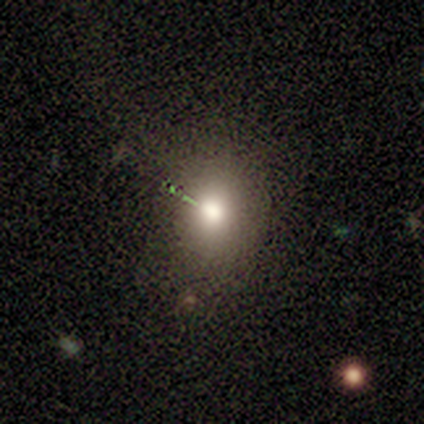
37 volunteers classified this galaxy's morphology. smooth-or-featured: smooth: 78% | star or artifact: 14% | featured or disk: 8%
  how-rounded: round: 59% | in between: 41% | cigar-shaped: 0%
  merging: none: 81% | minor disturbance: 12% | major disturbance: 6% | merger: 0%